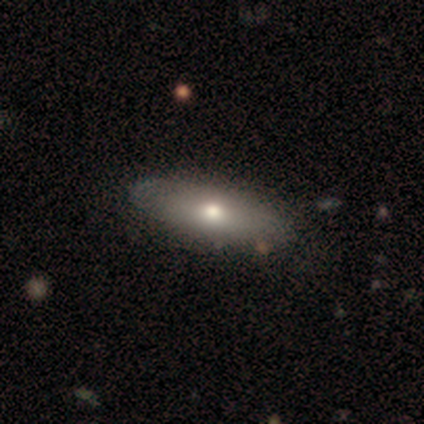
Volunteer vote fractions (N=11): This is likely a smooth galaxy (64%). How rounded: clearly in between (100%). Merging: clearly none (82%).